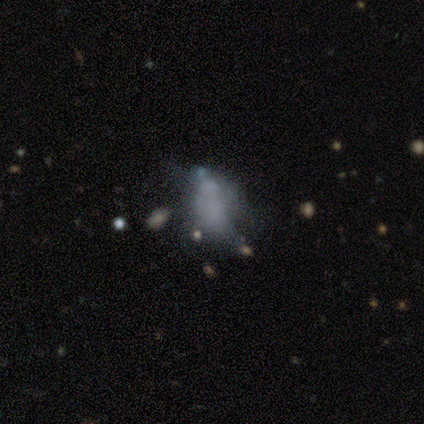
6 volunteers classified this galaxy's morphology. A smooth galaxy with no disk features (67%) that is in between round and cigar-shaped (100%).

Vote fractions:
- Smooth or featured? smooth: 67% / featured or disk: 33% / star or artifact: 0%
- How rounded? in between: 100% / round: 0% / cigar-shaped: 0%
- Merging? major disturbance: 50% / none: 33% / minor disturbance: 17% / merger: 0%